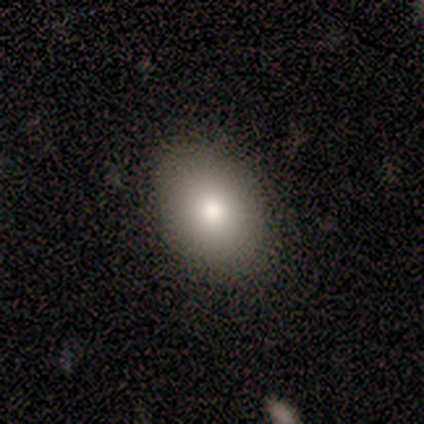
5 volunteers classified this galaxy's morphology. Smooth or featured? 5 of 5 (100%) said smooth. How rounded? 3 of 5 (60%) said in between. Merging? 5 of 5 (100%) said none.